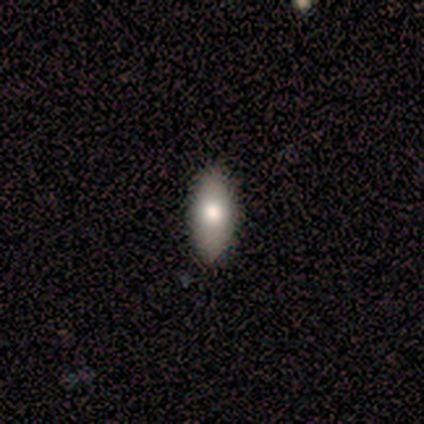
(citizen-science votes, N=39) A smooth galaxy with no disk features (74%) that is in between round and cigar-shaped (90%). Merging: none (92%).